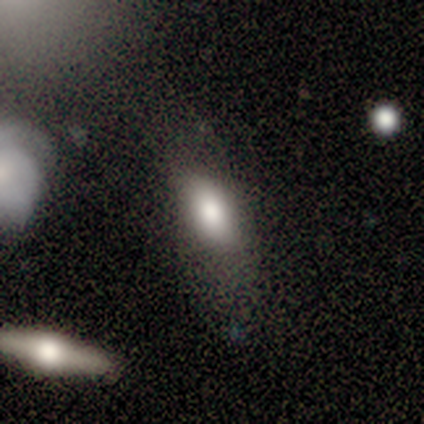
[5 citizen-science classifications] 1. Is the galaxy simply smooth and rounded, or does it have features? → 100% smooth, 0% featured or disk, 0% star or artifact.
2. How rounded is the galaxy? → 80% in between, 20% round, 0% cigar-shaped.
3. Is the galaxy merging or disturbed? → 60% none, 40% major disturbance, 0% minor disturbance, 0% merger.